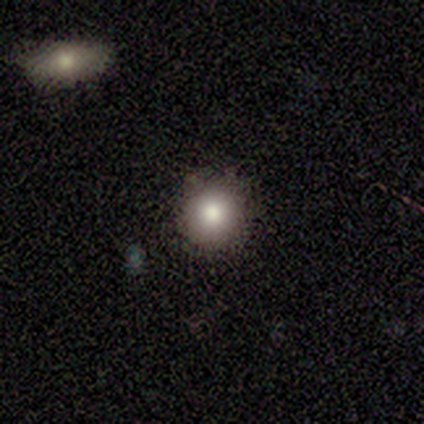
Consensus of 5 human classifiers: smooth-or-featured: smooth: 100% | featured or disk: 0% | star or artifact: 0%
  how-rounded: round: 100% | in between: 0% | cigar-shaped: 0%
  merging: none: 80% | minor disturbance: 20% | major disturbance: 0% | merger: 0%